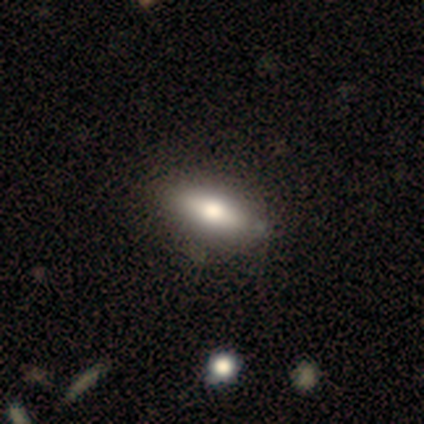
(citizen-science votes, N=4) A smooth galaxy with no disk features (75%) that is in between round and cigar-shaped (100%). Merging: none (75%).